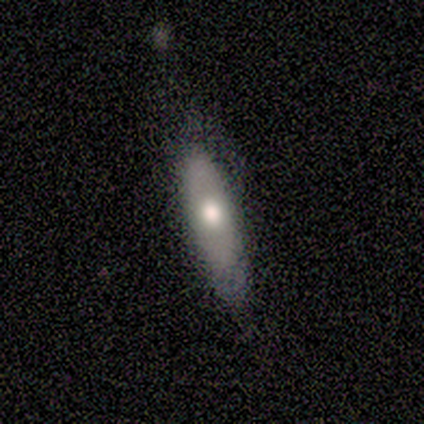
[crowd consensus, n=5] smooth_or_featured: smooth (p=0.60) [alt: featured or disk p=0.40]
how_rounded: cigar-shaped (p=1.00)
merging: none (p=0.60) [alt: minor disturbance p=0.40]